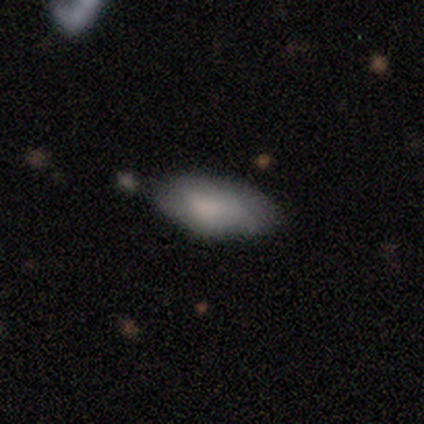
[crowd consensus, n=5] A smooth galaxy with no disk features (80%) that is in between round and cigar-shaped (100%).

Vote fractions:
- Smooth or featured? smooth: 80% / star or artifact: 20% / featured or disk: 0%
- How rounded? in between: 100% / round: 0% / cigar-shaped: 0%
- Merging? minor disturbance: 100% / none: 0% / major disturbance: 0% / merger: 0%